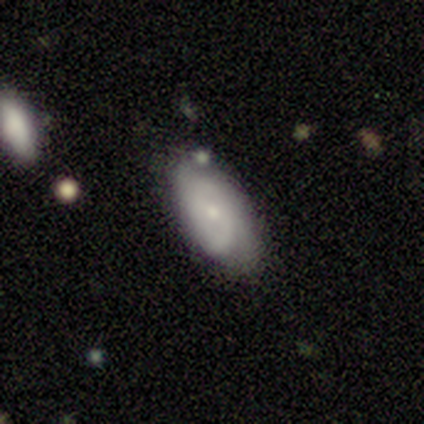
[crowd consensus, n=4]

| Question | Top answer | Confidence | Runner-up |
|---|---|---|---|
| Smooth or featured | featured or disk | 75% | smooth (25%) |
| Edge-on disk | no | 100% | — |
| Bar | weak | 67% | no (33%) |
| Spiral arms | yes | 67% | no (33%) |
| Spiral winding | tight | 100% | — |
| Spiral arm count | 1 | 50% | tied: 2 (50%) |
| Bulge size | small | 67% | moderate (33%) |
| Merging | none | 75% | minor disturbance (25%) |